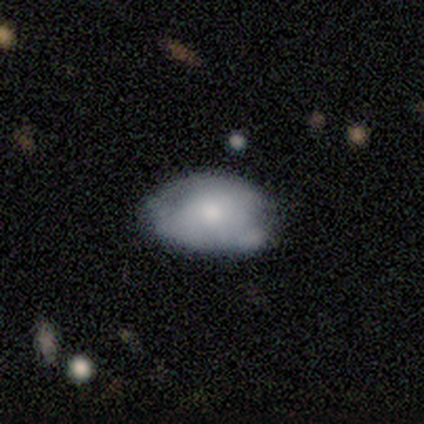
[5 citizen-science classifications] This appears to be a smooth galaxy with no disk features (60%) that is in between round and cigar-shaped (100%). Merging: minor disturbance (75%).